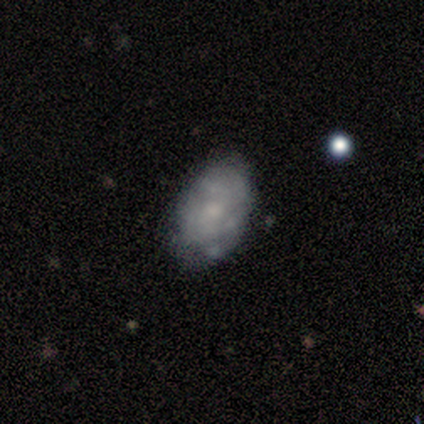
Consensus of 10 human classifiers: smooth_or_featured: featured or disk (p=0.60) [alt: smooth p=0.30]
disk_edge_on: no (p=1.00)
bar: no (p=0.83) [alt: weak p=0.17]
has_spiral_arms: no (p=0.83) [alt: yes p=0.17]
bulge_size: small (p=0.33) [tied with: none p=0.33]
merging: none (p=0.67) [alt: minor disturbance p=0.22]